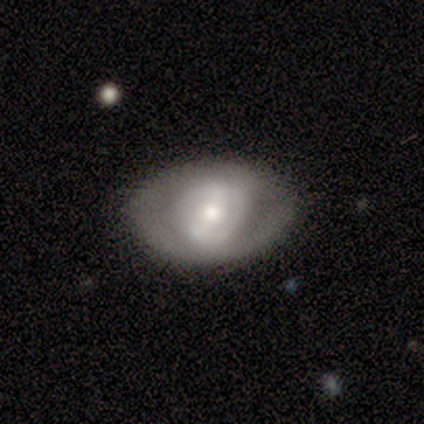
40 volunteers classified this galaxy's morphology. smooth-or-featured: smooth: 42% (tied) | featured or disk: 42% (tied) | star or artifact: 15%
  how-rounded: in between: 82% | round: 18% | cigar-shaped: 0%
  merging: none: 74% | minor disturbance: 18% | major disturbance: 6% | merger: 3%